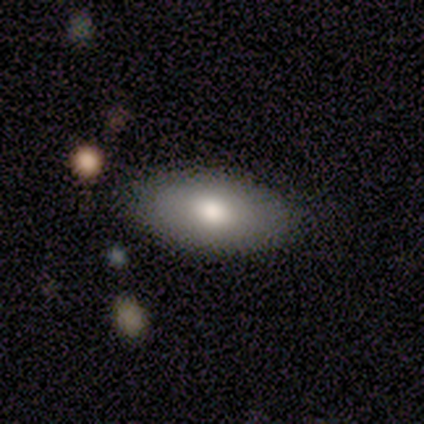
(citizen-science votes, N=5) Smooth or featured?
  - smooth: 80% *
  - featured or disk: 20%
  - star or artifact: 0%
How rounded?
  - in between: 75% *
  - round: 25%
  - cigar-shaped: 0%
Merging?
  - none: 80% *
  - minor disturbance: 20%
  - major disturbance: 0%
  - merger: 0%